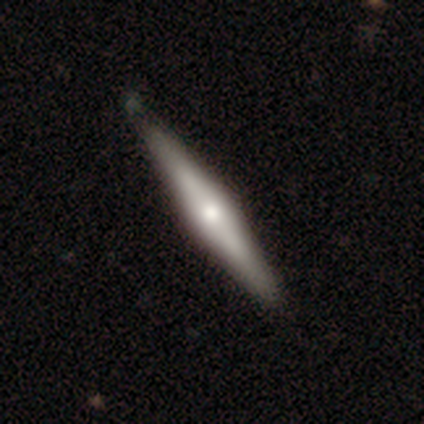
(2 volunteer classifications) A smooth galaxy with no disk features (50%, tied with featured or disk) that is cigar-shaped (100%).

Vote fractions:
- Smooth or featured? smooth: 50% (tied) / featured or disk: 50% (tied) / star or artifact: 0%
- How rounded? cigar-shaped: 100% / round: 0% / in between: 0%
- Merging? none: 100% / minor disturbance: 0% / major disturbance: 0% / merger: 0%